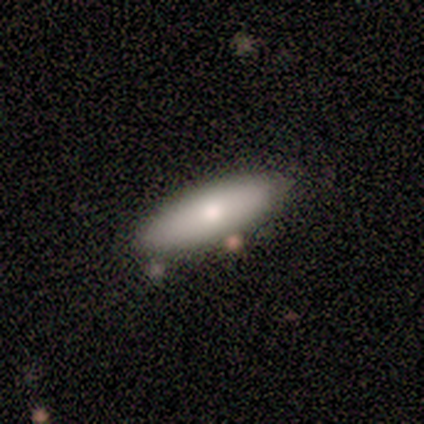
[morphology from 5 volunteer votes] This is likely a smooth galaxy (60%). How rounded: likely cigar-shaped (67%). Merging: clearly none (100%).